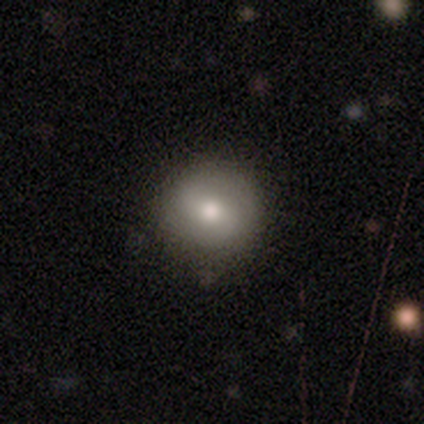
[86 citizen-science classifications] smooth 66%, featured or disk 23%, star or artifact 10%. Down the decision tree: how rounded — round (91%); merging — none (84%).